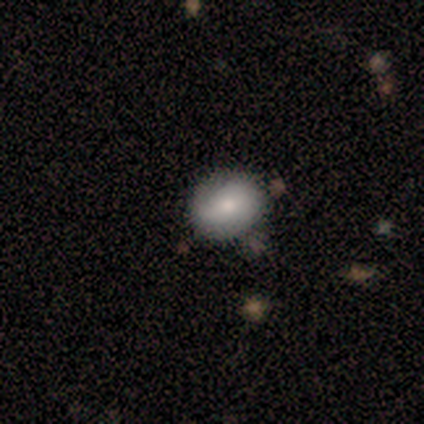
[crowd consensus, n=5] Morphology: type=featured or disk (60%); edge-on=no (100%); bar=no (67%); spiral arms=yes (67%); winding=tight (100%); arm count=2 (100%); bulge=moderate (67%); merging=none (80%).